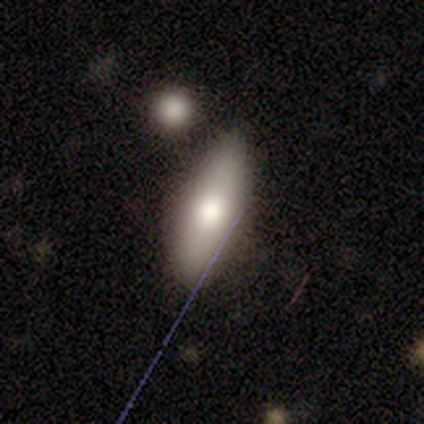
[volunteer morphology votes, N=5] Smooth or featured?
  - smooth: 80% *
  - featured or disk: 20%
  - star or artifact: 0%
How rounded?
  - in between: 75% *
  - cigar-shaped: 25%
  - round: 0%
Merging?
  - none: 100% *
  - minor disturbance: 0%
  - major disturbance: 0%
  - merger: 0%